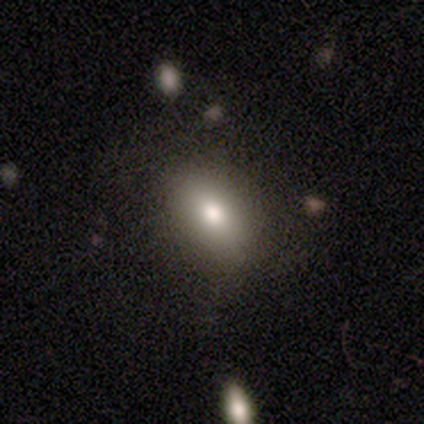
smooth_or_featured: smooth (p=0.60) [alt: featured or disk p=0.20]
how_rounded: in between (p=1.00)
merging: none (p=0.75) [alt: minor disturbance p=0.25]